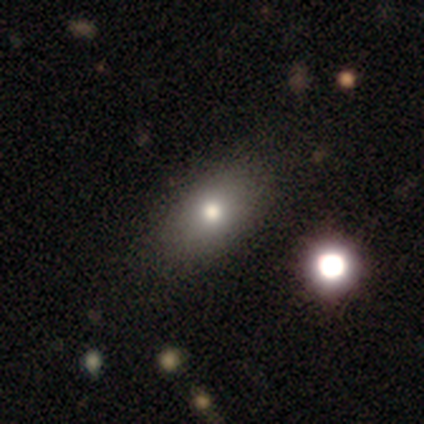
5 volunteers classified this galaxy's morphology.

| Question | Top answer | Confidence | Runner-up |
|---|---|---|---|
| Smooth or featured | smooth | 100% | — |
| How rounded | in between | 60% | round (40%) |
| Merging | none | 100% | — |